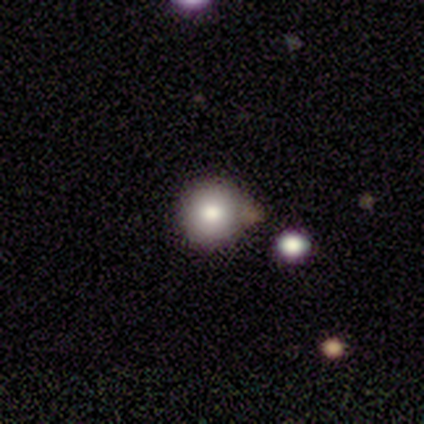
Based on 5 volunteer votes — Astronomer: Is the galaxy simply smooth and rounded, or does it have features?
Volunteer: smooth — 80%.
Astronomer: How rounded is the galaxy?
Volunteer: round — 100%.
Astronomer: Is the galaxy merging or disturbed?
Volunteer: none — 100%.